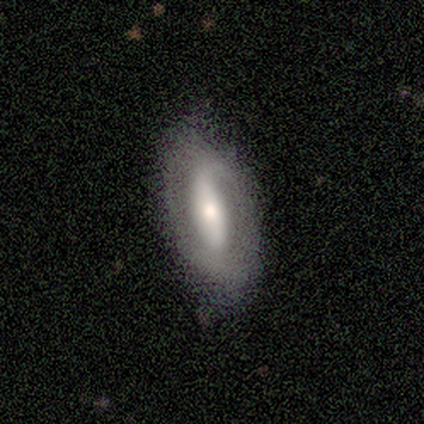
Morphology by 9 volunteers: Overall: featured or disk (67%; smooth 33%). Edge-on disk: no (83%). Bar: strong (80%). Spiral arms: no (60%; yes 40%). Bulge size: moderate (40%; dominant 20%). Merging: none (67%; minor disturbance 33%).